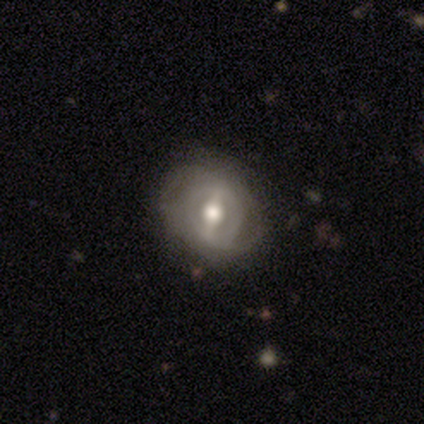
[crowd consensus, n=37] Q: Smooth or featured?
A: featured or disk (73%); runner-up: smooth (22%)
Q: Edge-on disk?
A: no (96%); runner-up: yes (4%)
Q: Bar?
A: strong (62%); runner-up: weak (38%)
Q: Spiral arms?
A: yes (81%); runner-up: no (19%)
Q: Spiral winding?
A: medium (43%); runner-up: tight (38%)
Q: Spiral arm count?
A: 2 (48%); runner-up: can't tell (38%)
Q: Bulge size?
A: moderate (65%); runner-up: large (23%)
Q: Merging?
A: none (54%); runner-up: minor disturbance (37%)